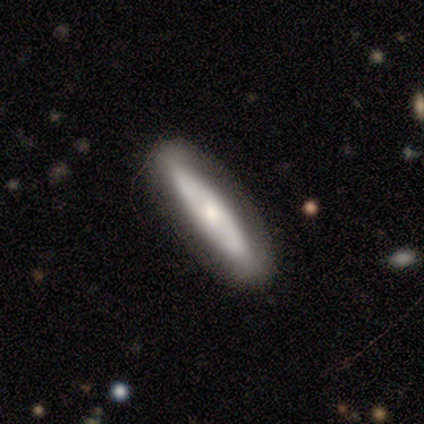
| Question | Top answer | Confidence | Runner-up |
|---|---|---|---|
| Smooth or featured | smooth | 67% | featured or disk (33%) |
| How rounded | cigar-shaped | 80% | in between (20%) |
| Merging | none | 60% | minor disturbance (20%) |